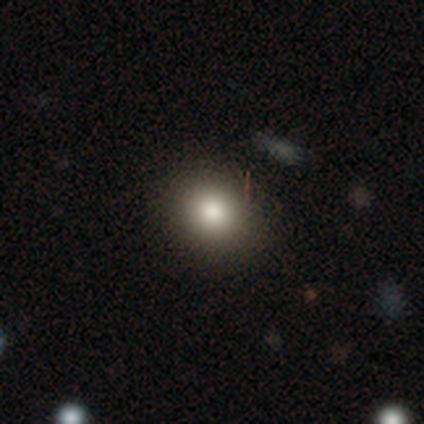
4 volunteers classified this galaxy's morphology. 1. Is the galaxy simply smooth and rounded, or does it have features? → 75% smooth, 25% star or artifact, 0% featured or disk.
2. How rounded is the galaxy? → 67% in between, 33% round, 0% cigar-shaped.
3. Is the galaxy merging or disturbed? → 67% none, 33% minor disturbance, 0% major disturbance, 0% merger.